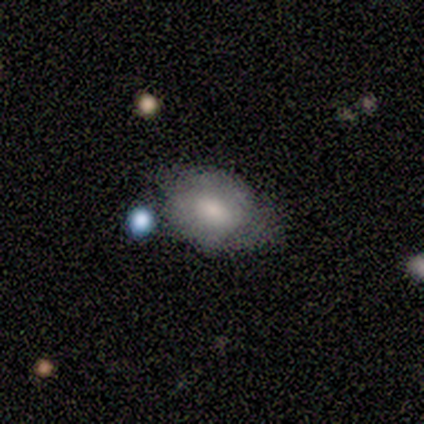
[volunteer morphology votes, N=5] Smooth or featured?
  - smooth: 60% *
  - star or artifact: 40%
  - featured or disk: 0%
How rounded?
  - round: 67% *
  - in between: 33%
  - cigar-shaped: 0%
Merging?
  - none: 67% *
  - minor disturbance: 33%
  - major disturbance: 0%
  - merger: 0%